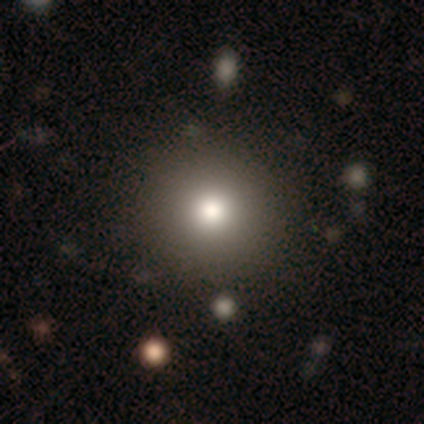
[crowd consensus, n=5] smooth-or-featured: smooth: 100% | featured or disk: 0% | star or artifact: 0%
  how-rounded: round: 100% | in between: 0% | cigar-shaped: 0%
  merging: none: 100% | minor disturbance: 0% | major disturbance: 0% | merger: 0%